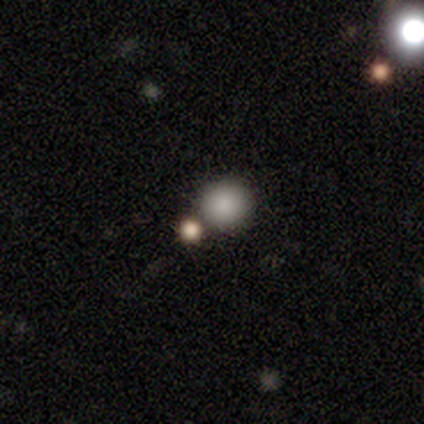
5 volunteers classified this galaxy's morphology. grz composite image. It shows a smooth galaxy with no disk features (60%) that is round (100%). Merging: merger (75%).